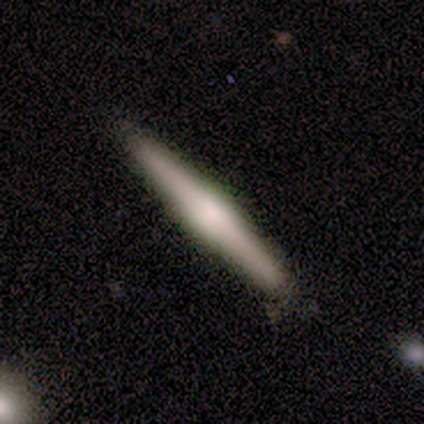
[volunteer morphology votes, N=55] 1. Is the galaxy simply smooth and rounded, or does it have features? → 64% featured or disk, 33% smooth, 4% star or artifact.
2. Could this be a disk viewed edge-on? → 100% yes, 0% no.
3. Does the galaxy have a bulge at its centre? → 54% rounded, 43% boxy, 3% none.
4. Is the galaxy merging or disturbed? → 75% none, 19% minor disturbance, 6% major disturbance, 0% merger.